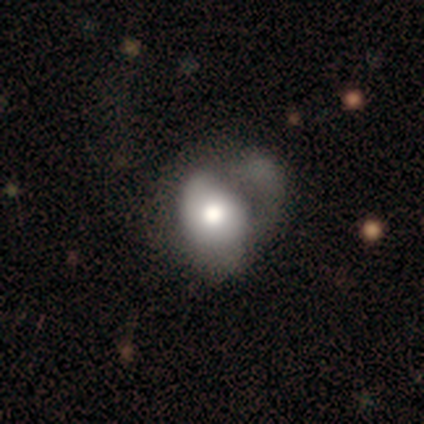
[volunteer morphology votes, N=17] A smooth galaxy with no disk features (59%) that is in between round and cigar-shaped (100%). Merging: major disturbance (38%).